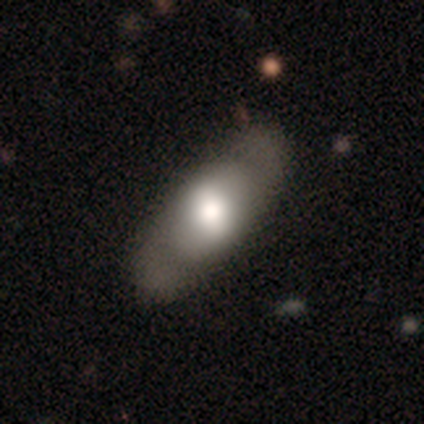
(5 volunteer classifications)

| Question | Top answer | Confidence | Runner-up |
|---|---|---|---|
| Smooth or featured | featured or disk | 80% | smooth (20%) |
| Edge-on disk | no | 75% | yes (25%) |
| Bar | strong | 67% | weak (33%) |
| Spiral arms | yes | 100% | — |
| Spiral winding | tight | 100% | — |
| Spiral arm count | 2 | 100% | — |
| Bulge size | dominant | 67% | moderate (33%) |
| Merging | none | 80% | minor disturbance (20%) |